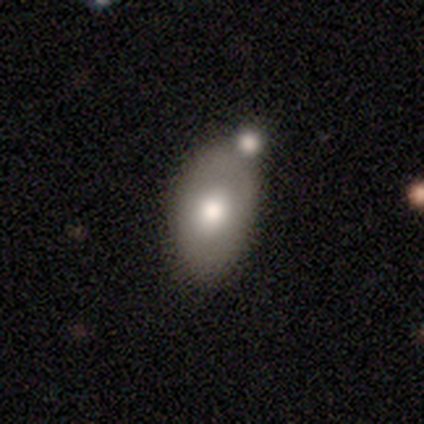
Overall: smooth (60%; featured or disk 40%). How rounded: in between (100%). Merging: none (60%; minor disturbance 20%).